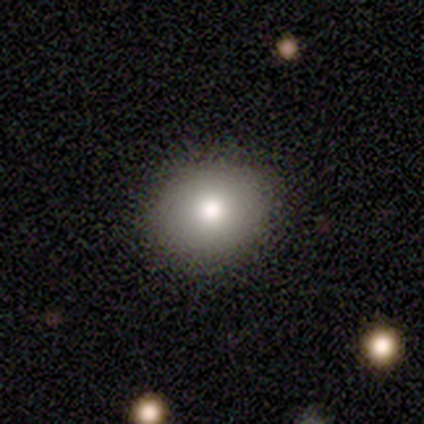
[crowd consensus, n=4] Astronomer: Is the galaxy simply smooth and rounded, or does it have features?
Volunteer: smooth — 100%.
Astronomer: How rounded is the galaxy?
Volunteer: in between — 75%.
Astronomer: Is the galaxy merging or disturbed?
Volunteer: none — 75%.